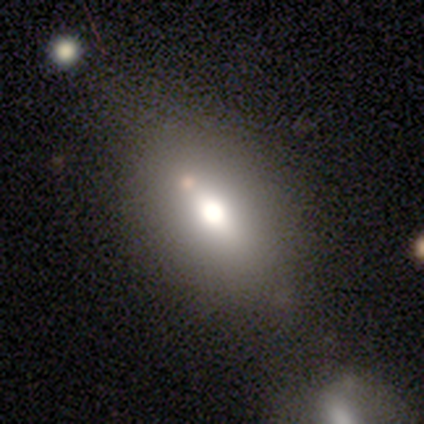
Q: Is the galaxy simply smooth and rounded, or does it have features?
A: smooth — 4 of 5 (80%).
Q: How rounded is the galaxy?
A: in between — 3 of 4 (75%).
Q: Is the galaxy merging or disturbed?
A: none — 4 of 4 (100%).